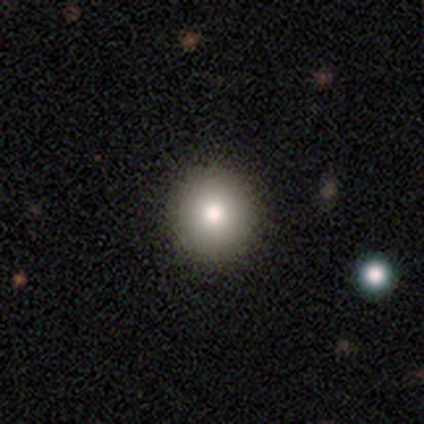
A smooth galaxy with no disk features (100%) that is round (100%). Merging: none (80%).